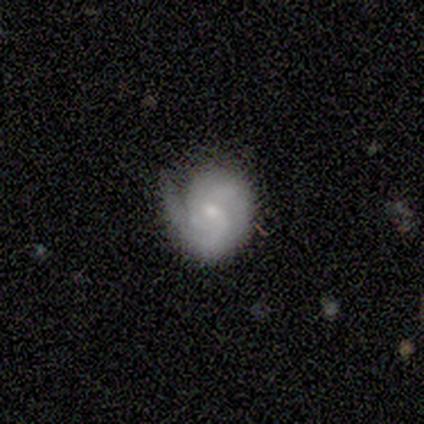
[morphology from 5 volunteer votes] This appears to be a featured or disk galaxy (60%) with a weak bar (67%), 2 (67%) tight (33%, tied with medium and loose) spiral arms (100%) and a small central bulge (67%). Merging: minor disturbance (60%).